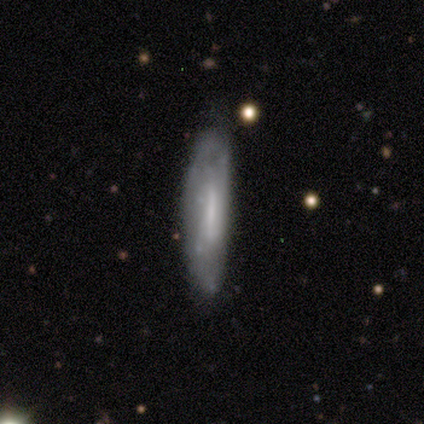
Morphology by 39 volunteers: featured or disk 56%, smooth 41%, star or artifact 3%. Down the decision tree: edge-on disk — no (59%); bar — strong (54%); spiral arms — no (69%); bulge size — small (46%, tied with none); merging — none (68%).